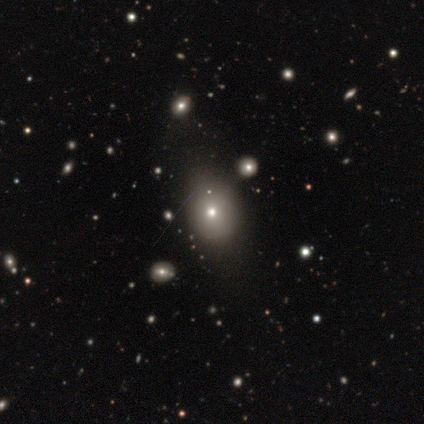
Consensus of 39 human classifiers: smooth-or-featured: smooth: 74% | featured or disk: 15% | star or artifact: 10%
  how-rounded: round: 66% | in between: 31% | cigar-shaped: 3%
  merging: none: 49% | minor disturbance: 14% | merger: 3% | major disturbance: 0%